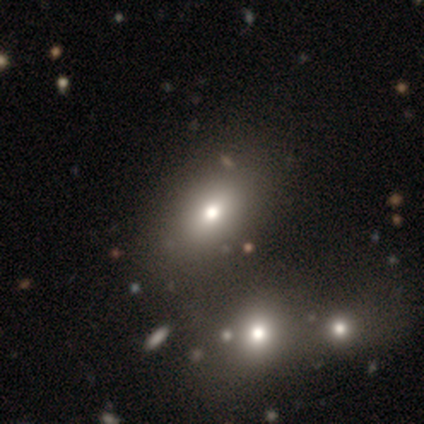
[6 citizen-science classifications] Smooth or featured?
  - smooth: 67% *
  - featured or disk: 33%
  - star or artifact: 0%
How rounded?
  - in between: 75% *
  - round: 25%
  - cigar-shaped: 0%
Merging?
  - none: 67% *
  - minor disturbance: 17%
  - major disturbance: 17%
  - merger: 0%